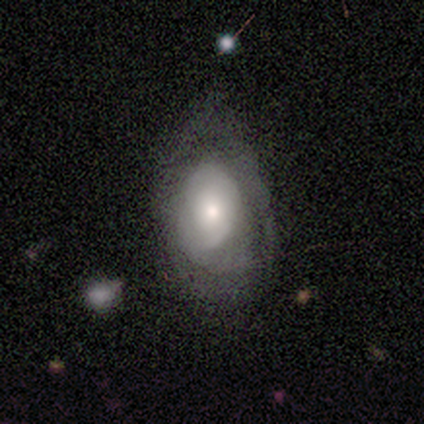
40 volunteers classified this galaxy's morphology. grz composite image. It shows a smooth galaxy with no disk features (52%) that is in between round and cigar-shaped (76%). Merging: none (41%, tied with minor disturbance).